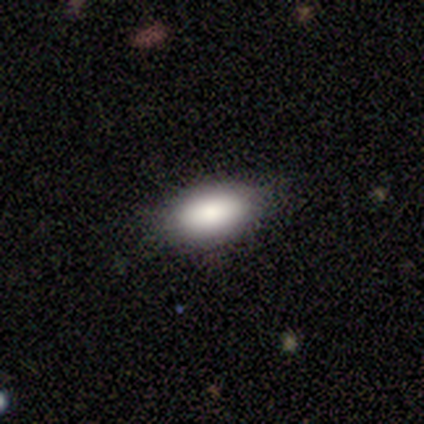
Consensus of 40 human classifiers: A smooth galaxy with no disk features (80%) that is in between round and cigar-shaped (94%). Merging: none (68%).